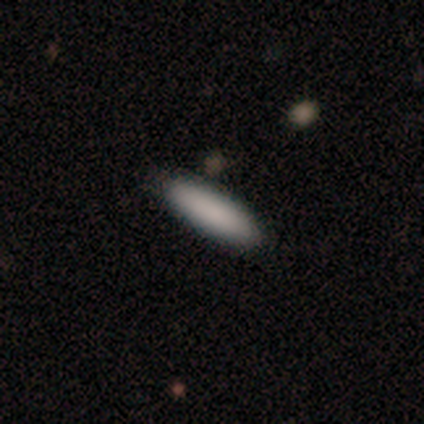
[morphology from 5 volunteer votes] Smooth or featured? smooth (80%)
How rounded? in between (50%, tied with cigar-shaped)
Merging? none (60%)